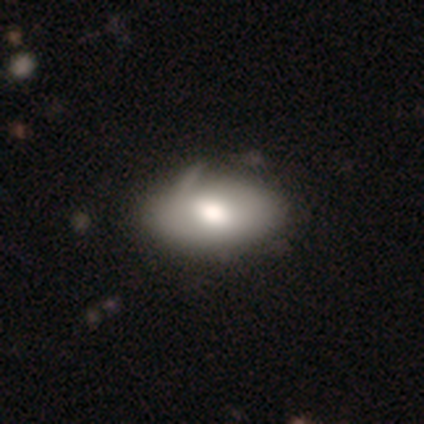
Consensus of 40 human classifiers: Q: Smooth or featured?
A: smooth (78%); runner-up: featured or disk (20%)
Q: How rounded?
A: in between (97%); runner-up: round (3%)
Q: Merging?
A: none (31%); runner-up: minor disturbance (28%)